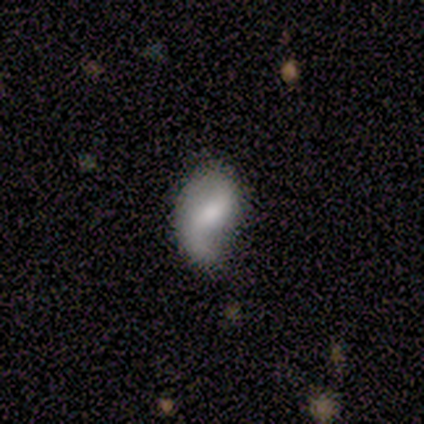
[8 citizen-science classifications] This is likely a smooth galaxy (62%). How rounded: likely in between (60%). Merging: possibly minor disturbance (50%).